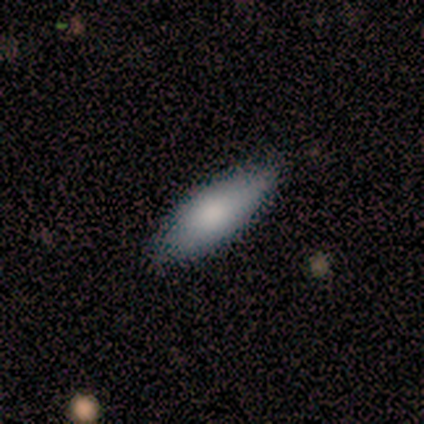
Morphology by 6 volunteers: Overall: smooth (50%, tied with featured or disk). How rounded: in between (100%). Merging: none (100%).